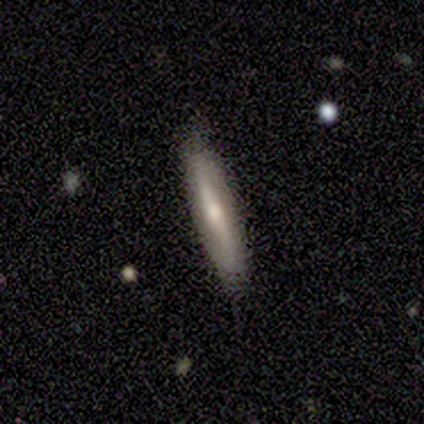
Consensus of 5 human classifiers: Volunteers were most divided on "merging": none: 75%, major disturbance: 25%, minor disturbance: 0%, merger: 0%. More confident: how rounded — cigar-shaped (100%); smooth or featured — smooth (80%).